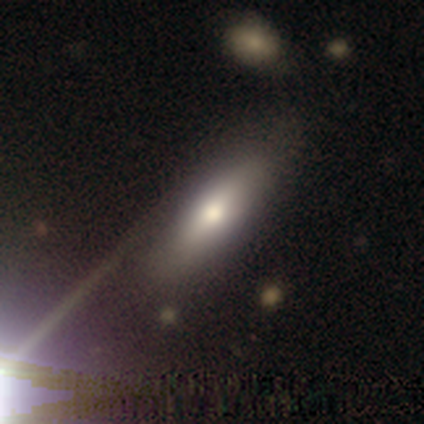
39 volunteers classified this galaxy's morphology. Smooth or featured: smooth — 69% (featured or disk — 26%)
How rounded: in between — 70% (cigar-shaped — 30%)
Merging: none — 81% (minor disturbance — 11%)